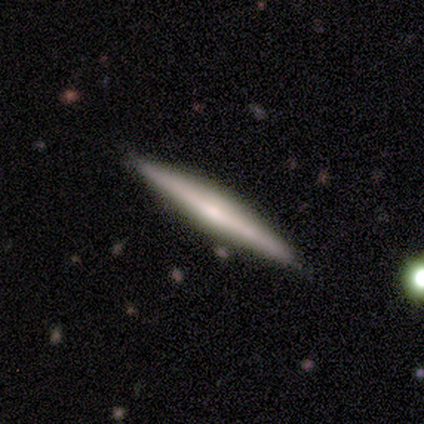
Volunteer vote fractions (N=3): This appears to be a featured or disk galaxy (67%) viewed edge-on (100%) with a boxy central bulge (50%, tied with rounded). Merging: none (100%).